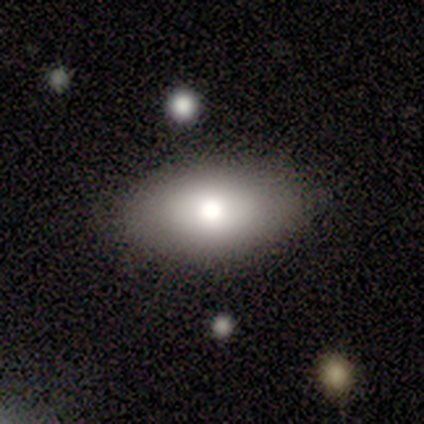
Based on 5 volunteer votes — smooth-or-featured: smooth: 100% | featured or disk: 0% | star or artifact: 0%
  how-rounded: in between: 100% | round: 0% | cigar-shaped: 0%
  merging: none: 80% | minor disturbance: 20% | major disturbance: 0% | merger: 0%